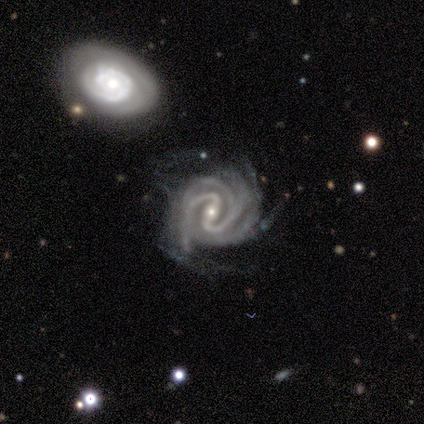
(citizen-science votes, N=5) featured or disk 100%, smooth 0%, star or artifact 0%. Down the decision tree: edge-on disk — no (100%); bar — strong (80%); spiral arms — yes (100%); spiral arm count — 3 (40%); spiral winding — medium (60%); bulge size — small (80%); merging — minor disturbance (80%).